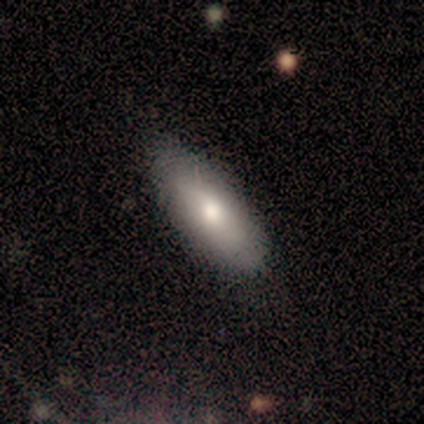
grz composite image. It shows a smooth galaxy with no disk features (60%) that is in between round and cigar-shaped (67%). Merging: none (100%).